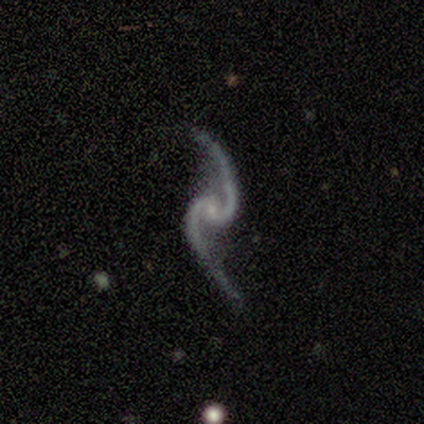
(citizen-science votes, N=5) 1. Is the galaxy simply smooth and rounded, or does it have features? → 100% featured or disk, 0% smooth, 0% star or artifact.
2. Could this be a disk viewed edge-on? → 100% no, 0% yes.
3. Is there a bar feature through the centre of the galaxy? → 80% no, 20% weak, 0% strong.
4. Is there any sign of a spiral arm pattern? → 100% yes, 0% no.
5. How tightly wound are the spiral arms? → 60% loose, 40% medium, 0% tight.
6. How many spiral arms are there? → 100% 2, 0% 1, 0% 3, 0% 4, 0% more than 4, 0% can't tell.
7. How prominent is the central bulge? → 80% small, 20% moderate, 0% dominant, 0% large, 0% none.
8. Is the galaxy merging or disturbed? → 100% none, 0% minor disturbance, 0% major disturbance, 0% merger.